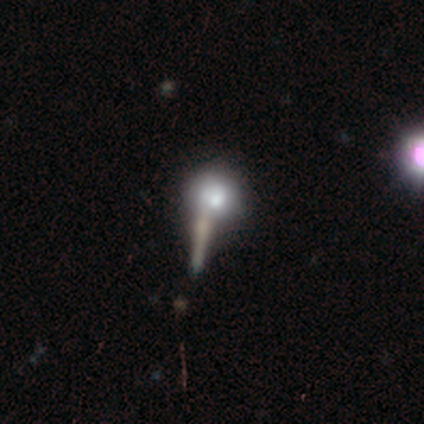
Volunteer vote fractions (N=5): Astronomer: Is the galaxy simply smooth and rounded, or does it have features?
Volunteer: smooth — 80%.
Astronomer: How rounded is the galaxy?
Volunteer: round — 50%, tied with in between at 50%.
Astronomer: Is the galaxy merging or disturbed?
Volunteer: none — 40%, tied with merger at 40%.